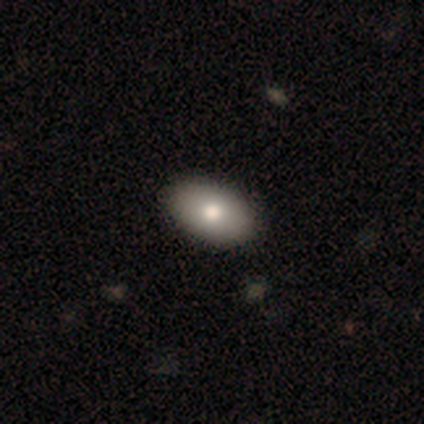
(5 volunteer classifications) A smooth galaxy with no disk features (100%) that is in between round and cigar-shaped (100%). Merging: none (100%).